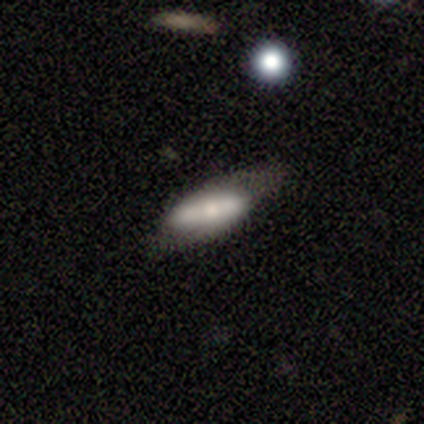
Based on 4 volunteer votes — A smooth galaxy with no disk features (50%, tied with featured or disk) that is in between round and cigar-shaped (100%).

Vote fractions:
- Smooth or featured? smooth: 50% (tied) / featured or disk: 50% (tied) / star or artifact: 0%
- How rounded? in between: 100% / round: 0% / cigar-shaped: 0%
- Merging? none: 50% (tied) / minor disturbance: 50% (tied) / major disturbance: 0% / merger: 0%